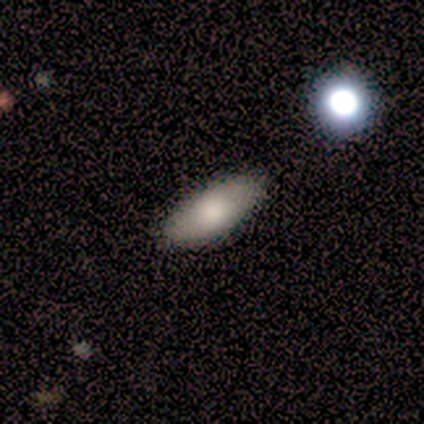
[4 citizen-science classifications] This appears to be a smooth galaxy with no disk features (75%) that is in between round and cigar-shaped (100%). Merging: none (100%).